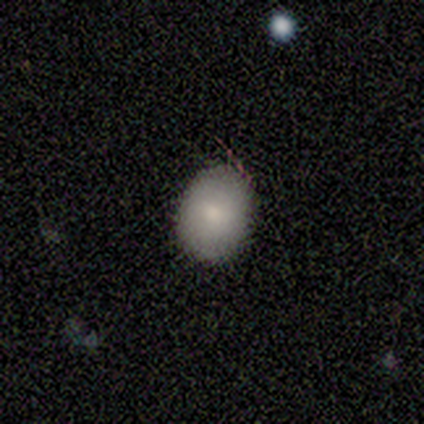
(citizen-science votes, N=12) smooth 67%, star or artifact 25%, featured or disk 8%. Down the decision tree: how rounded — in between (62%); merging — none (78%).